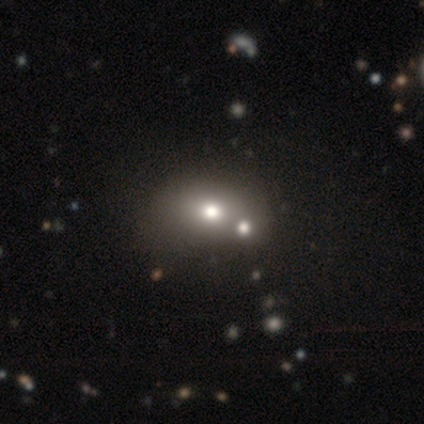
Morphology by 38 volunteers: Volunteers were most divided on "merging" (2-way tie): none: 42%, merger: 42%, minor disturbance: 3%, major disturbance: 3%. More confident: how rounded — in between (69%); smooth or featured — smooth (68%).